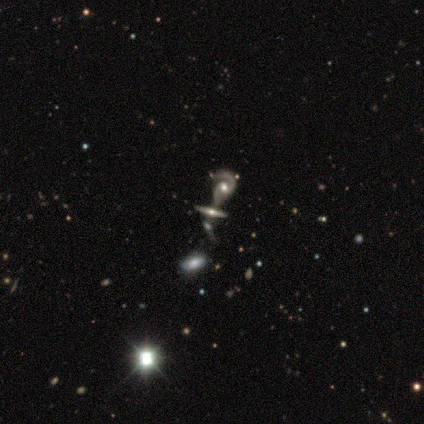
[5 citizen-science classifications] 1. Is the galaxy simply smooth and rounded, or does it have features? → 80% featured or disk, 20% star or artifact, 0% smooth.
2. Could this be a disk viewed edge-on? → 75% yes, 25% no.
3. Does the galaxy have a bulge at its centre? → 100% rounded, 0% boxy, 0% none.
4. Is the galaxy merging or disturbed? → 50% merger, 25% none, 25% minor disturbance, 0% major disturbance.